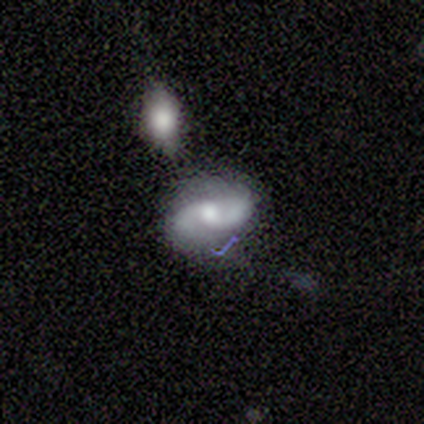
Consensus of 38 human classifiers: featured or disk 92%, star or artifact 5%, smooth 3%. Down the decision tree: edge-on disk — no (100%); bar — no (66%); spiral arms — yes (89%); spiral arm count — 2 (97%); spiral winding — loose (52%); bulge size — moderate (69%); merging — none (53%).